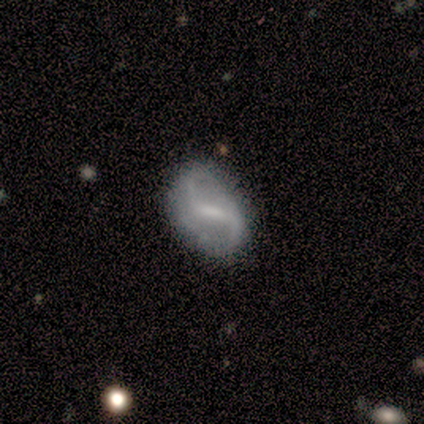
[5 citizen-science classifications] This appears to be a featured or disk galaxy (60%) with a weak bar (67%), 2 (67%) loose (67%) spiral arms (100%) and a small central bulge (67%). Merging: none (50%).